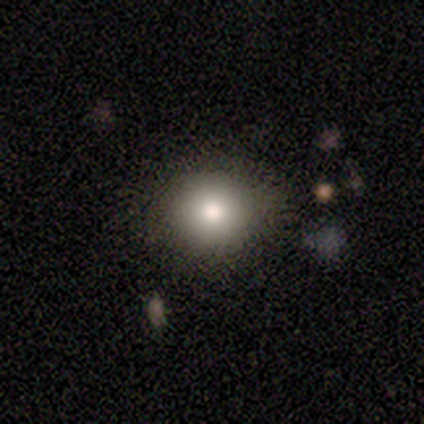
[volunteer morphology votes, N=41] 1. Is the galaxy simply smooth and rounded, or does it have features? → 83% smooth, 12% featured or disk, 5% star or artifact.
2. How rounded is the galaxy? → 97% round, 3% in between, 0% cigar-shaped.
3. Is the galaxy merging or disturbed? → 72% none, 3% major disturbance, 0% minor disturbance, 0% merger.